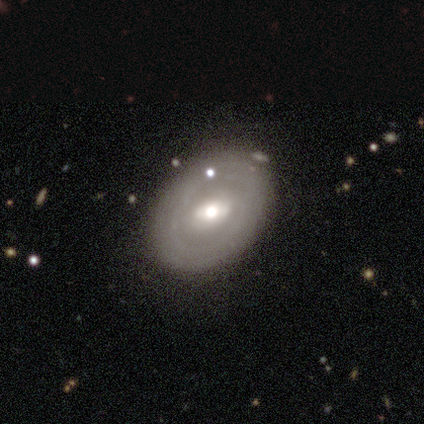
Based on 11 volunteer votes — Q: Smooth or featured?
A: featured or disk (55%); runner-up: smooth (36%)
Q: Edge-on disk?
A: no (100%)
Q: Bar?
A: weak (100%)
Q: Spiral arms?
A: no (100%)
Q: Bulge size?
A: moderate (83%); runner-up: large (17%)
Q: Merging?
A: none (80%); runner-up: minor disturbance (10%)